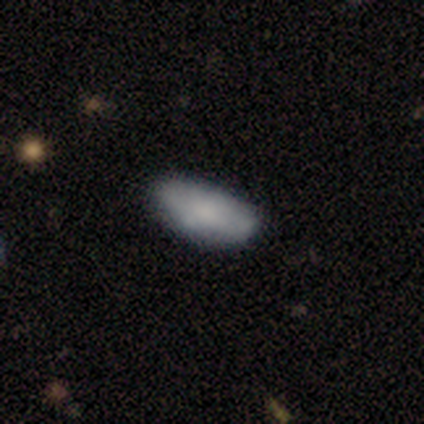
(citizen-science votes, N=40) smooth-or-featured: smooth: 68% | featured or disk: 22% | star or artifact: 10%
  how-rounded: in between: 89% | cigar-shaped: 11% | round: 0%
  merging: none: 61% | minor disturbance: 28% | major disturbance: 8% | merger: 3%